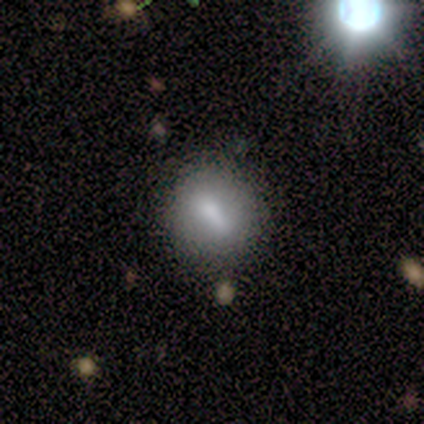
Smooth or featured? 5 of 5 (100%) said smooth. How rounded? 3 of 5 (60%) said round. Merging? 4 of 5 (80%) said none.